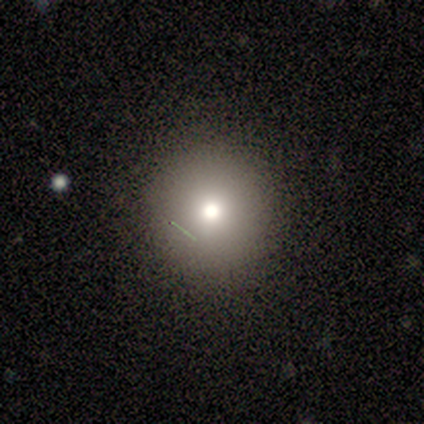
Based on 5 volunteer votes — smooth 80%, star or artifact 20%, featured or disk 0%. Down the decision tree: how rounded — round (100%); merging — none (75%).